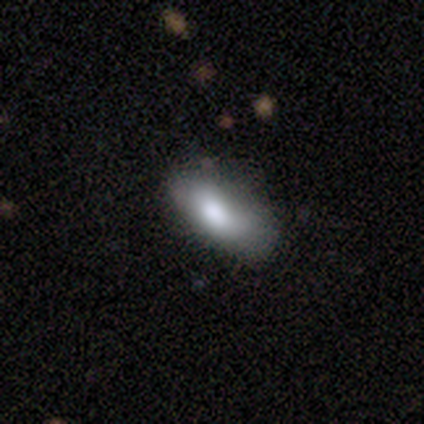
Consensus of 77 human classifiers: Smooth or featured?
  - smooth: 79% *
  - featured or disk: 12%
  - star or artifact: 9%
How rounded?
  - in between: 93% *
  - cigar-shaped: 5%
  - round: 2%
Merging?
  - none: 27% *
  - minor disturbance: 19%
  - merger: 10%
  - major disturbance: 1%